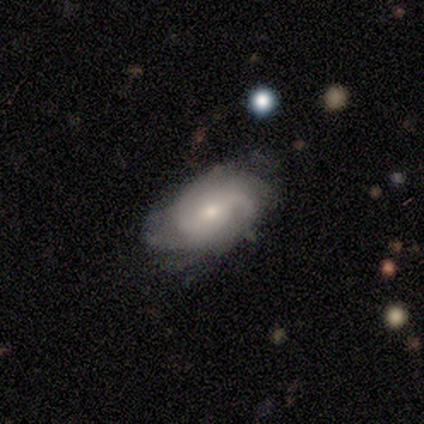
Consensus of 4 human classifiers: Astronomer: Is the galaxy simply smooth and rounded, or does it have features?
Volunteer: featured or disk — 75%.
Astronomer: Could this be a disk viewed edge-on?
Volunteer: no — 100%.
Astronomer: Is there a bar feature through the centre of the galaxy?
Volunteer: no — 100%.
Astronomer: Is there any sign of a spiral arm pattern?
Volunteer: yes — 100%.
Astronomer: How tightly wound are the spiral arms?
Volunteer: medium — 67%.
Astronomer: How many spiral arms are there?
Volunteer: can't tell — 67%.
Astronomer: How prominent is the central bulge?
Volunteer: moderate — 67%.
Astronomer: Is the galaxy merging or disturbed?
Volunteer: none — 50%.